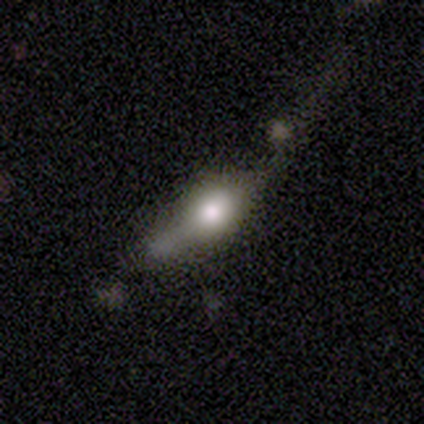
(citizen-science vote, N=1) A smooth galaxy with no disk features (100%) that is in between round and cigar-shaped (100%). Merging: none (100%).